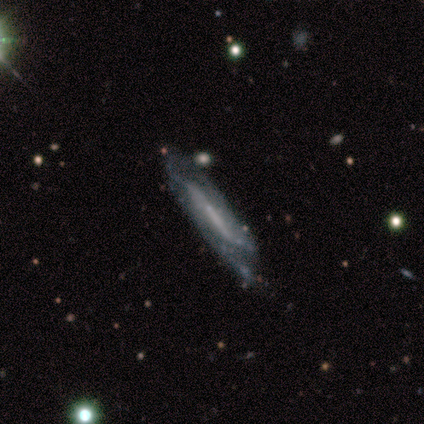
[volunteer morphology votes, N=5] A featured or disk galaxy (80%) with no bar (67%), 2 (100%) tight (50%, tied with medium) spiral arms (67%) and a moderate central bulge (33%, tied with small and none).

Vote fractions:
- Smooth or featured? featured or disk: 80% / smooth: 20% / star or artifact: 0%
- Edge-on disk? no: 75% / yes: 25%
- Bar? no: 67% / strong: 33% / weak: 0%
- Spiral arms? yes: 67% / no: 33%
- Spiral winding? tight: 50% (tied) / medium: 50% (tied) / loose: 0%
- Spiral arm count? 2: 100% / 1: 0% / 3: 0% / 4: 0% / more than 4: 0% / can't tell: 0%
- Bulge size? moderate: 33% (tied) / small: 33% (tied) / none: 33% (tied) / dominant: 0% / large: 0%
- Merging? none: 40% (tied) / major disturbance: 40% (tied) / minor disturbance: 20% / merger: 0%